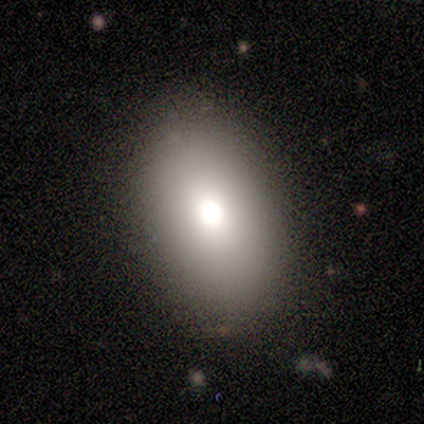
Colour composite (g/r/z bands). It shows a smooth galaxy with no disk features (100%) that is in between round and cigar-shaped (80%). Merging: none (100%).